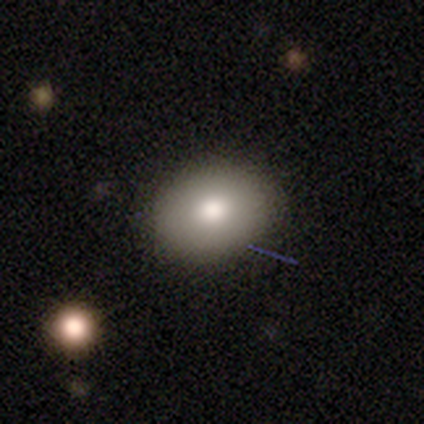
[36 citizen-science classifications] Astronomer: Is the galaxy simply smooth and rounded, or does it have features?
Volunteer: smooth — 92%.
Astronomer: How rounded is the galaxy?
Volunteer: in between — 64%.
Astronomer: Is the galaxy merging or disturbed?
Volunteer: none — 79%.